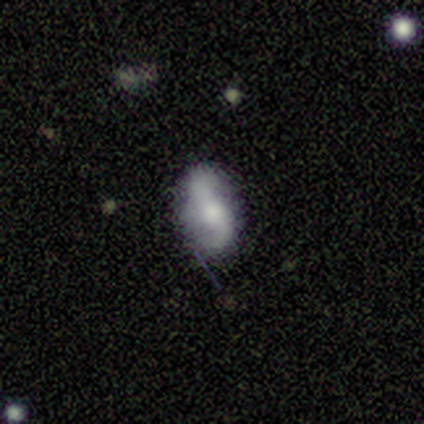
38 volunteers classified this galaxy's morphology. Smooth or featured? 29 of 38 (76%) said featured or disk. Edge-on disk? 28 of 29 (97%) said no. Bar? 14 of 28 (50%) said no. Spiral arms? 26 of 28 (93%) said yes. Spiral winding? 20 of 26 (77%) said loose. Spiral arm count? 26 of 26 (100%) said 2. Bulge size? 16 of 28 (57%) said moderate. Merging? 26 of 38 (68%) said none.